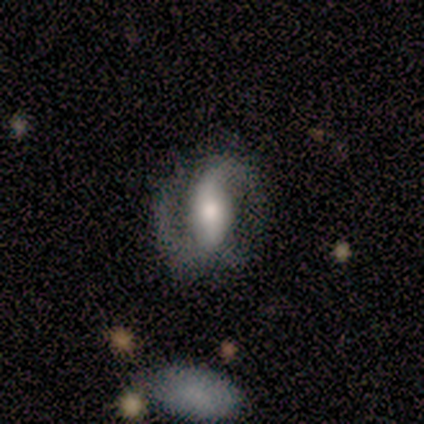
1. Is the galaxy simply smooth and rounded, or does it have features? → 100% featured or disk, 0% smooth, 0% star or artifact.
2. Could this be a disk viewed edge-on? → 100% no, 0% yes.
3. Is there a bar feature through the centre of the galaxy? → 71% strong, 29% weak, 0% no.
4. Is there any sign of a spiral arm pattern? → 100% yes, 0% no.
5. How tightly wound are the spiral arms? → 57% loose, 29% medium, 14% tight.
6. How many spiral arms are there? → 100% 2, 0% 1, 0% 3, 0% 4, 0% more than 4, 0% can't tell.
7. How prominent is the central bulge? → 71% moderate, 29% small, 0% dominant, 0% large, 0% none.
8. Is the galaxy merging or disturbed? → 86% none, 14% merger, 0% minor disturbance, 0% major disturbance.